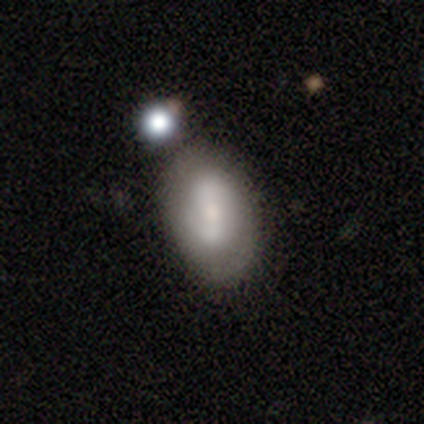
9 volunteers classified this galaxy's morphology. type=smooth (67%); roundness=in between (100%); merging=none (67%).